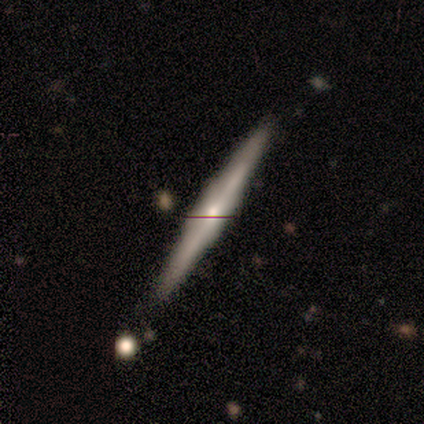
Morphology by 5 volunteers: Overall: smooth (60%; featured or disk 40%). How rounded: cigar-shaped (100%). Merging: none (100%).